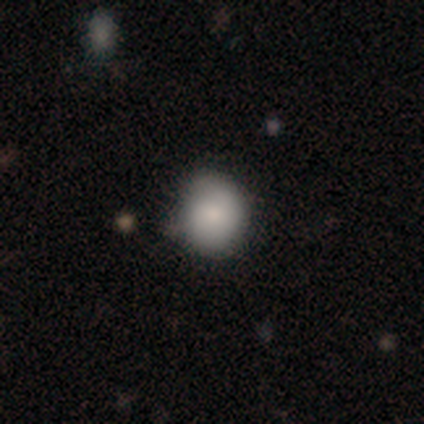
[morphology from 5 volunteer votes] Smooth or featured? 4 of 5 (80%) said smooth. How rounded? 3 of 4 (75%) said round. Merging? 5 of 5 (100%) said none.